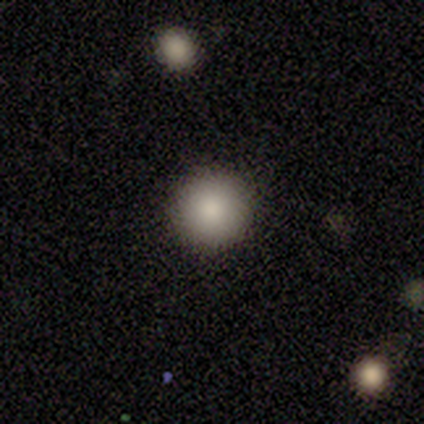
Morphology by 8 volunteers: A smooth galaxy with no disk features (75%) that is round (100%).

Vote fractions:
- Smooth or featured? smooth: 75% / featured or disk: 12% / star or artifact: 12%
- How rounded? round: 100% / in between: 0% / cigar-shaped: 0%
- Merging? none: 86% / merger: 14% / minor disturbance: 0% / major disturbance: 0%